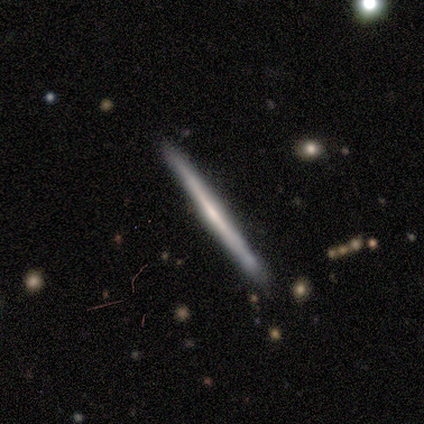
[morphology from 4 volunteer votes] Smooth or featured?
  - smooth: 50% * (tied)
  - featured or disk: 50% * (tied)
  - star or artifact: 0%
How rounded?
  - cigar-shaped: 100% *
  - round: 0%
  - in between: 0%
Merging?
  - none: 50% * (tied)
  - minor disturbance: 50% * (tied)
  - major disturbance: 0%
  - merger: 0%